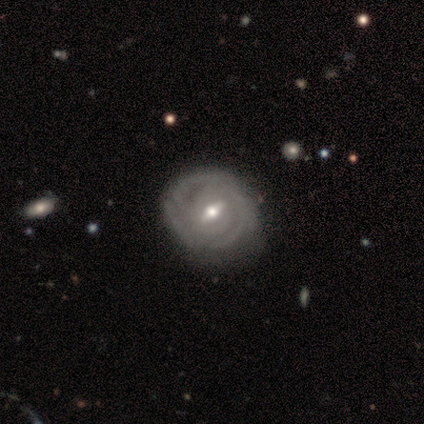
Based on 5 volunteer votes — Q: Smooth or featured?
A: featured or disk (80%); runner-up: smooth (20%)
Q: Edge-on disk?
A: no (100%)
Q: Bar?
A: strong (50%); runner-up: weak (25%)
Q: Spiral arms?
A: yes (75%); runner-up: no (25%)
Q: Spiral winding?
A: tight (100%)
Q: Spiral arm count?
A: can't tell (67%); runner-up: 2 (33%)
Q: Bulge size?
A: moderate (50%); tied with: small (50%)
Q: Merging?
A: none (80%); runner-up: minor disturbance (20%)